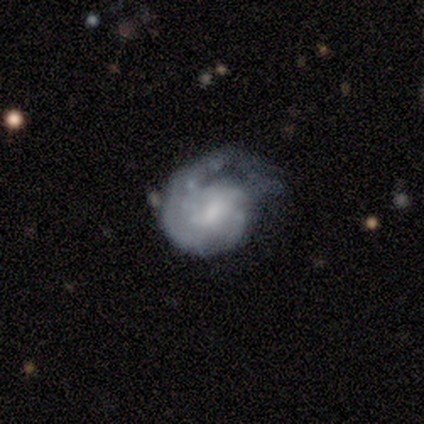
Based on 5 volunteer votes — smooth_or_featured: smooth (p=0.60) [alt: featured or disk p=0.40]
how_rounded: in between (p=0.67) [alt: round p=0.33]
merging: none (p=0.40) [tied with: major disturbance p=0.40]